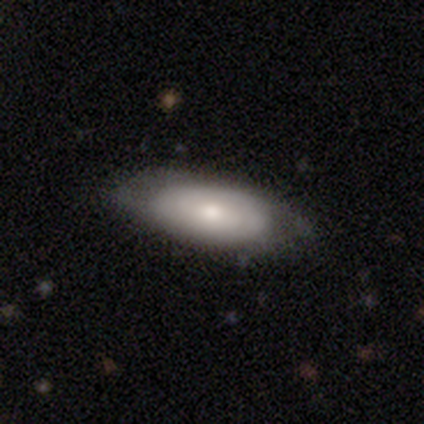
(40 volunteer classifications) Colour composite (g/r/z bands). It shows a smooth galaxy with no disk features (65%) that is in between round and cigar-shaped (81%). Merging: none (65%).